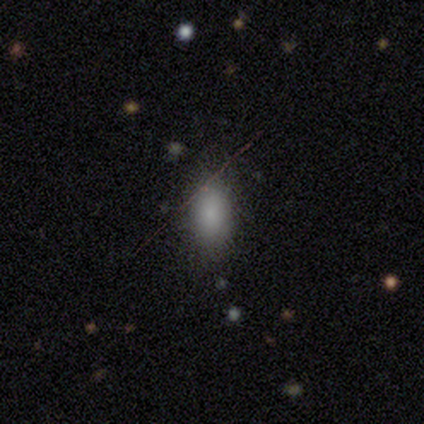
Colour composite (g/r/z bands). It shows a smooth galaxy with no disk features (100%) that is in between round and cigar-shaped (100%). Merging: none (100%).